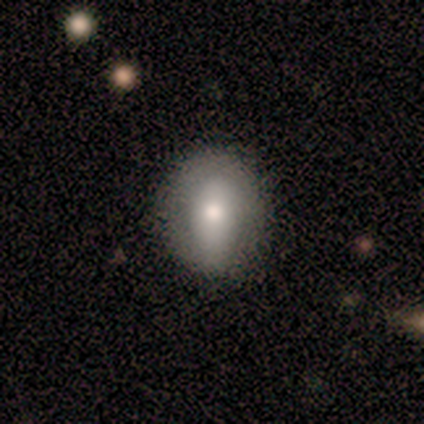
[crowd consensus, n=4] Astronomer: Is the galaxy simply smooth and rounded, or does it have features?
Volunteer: smooth — 75%.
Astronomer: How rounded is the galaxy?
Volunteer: in between — 100%.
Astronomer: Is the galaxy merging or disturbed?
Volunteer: none — 75%.